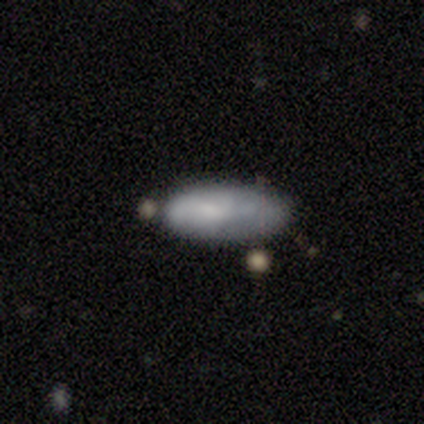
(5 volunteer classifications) smooth_or_featured: smooth (p=1.00)
how_rounded: in between (p=0.80) [alt: cigar-shaped p=0.20]
merging: minor disturbance (p=0.40) [tied with: major disturbance p=0.40]